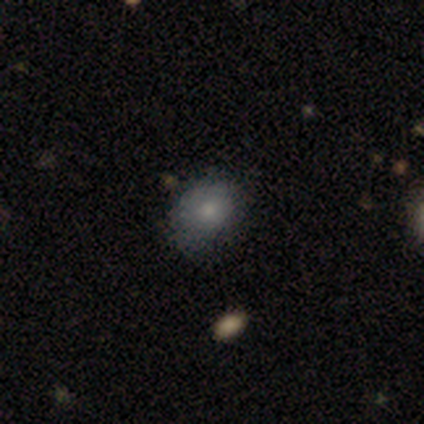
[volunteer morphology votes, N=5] smooth_or_featured: smooth (p=0.40) [tied with: featured or disk p=0.40]
how_rounded: round (p=0.50) [tied with: in between p=0.50]
merging: none (p=0.75) [alt: major disturbance p=0.25]